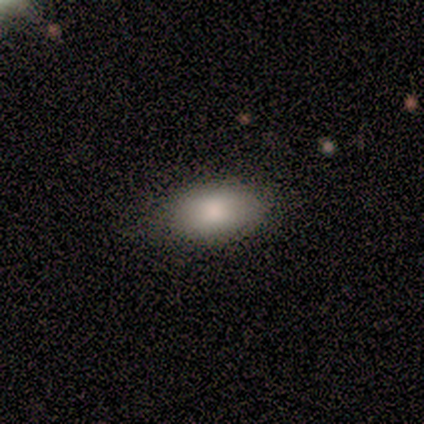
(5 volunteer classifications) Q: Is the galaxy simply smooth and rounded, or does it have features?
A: smooth — 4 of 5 (80%).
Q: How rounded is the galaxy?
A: in between — 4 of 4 (100%).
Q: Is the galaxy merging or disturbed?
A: none — 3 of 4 (75%).